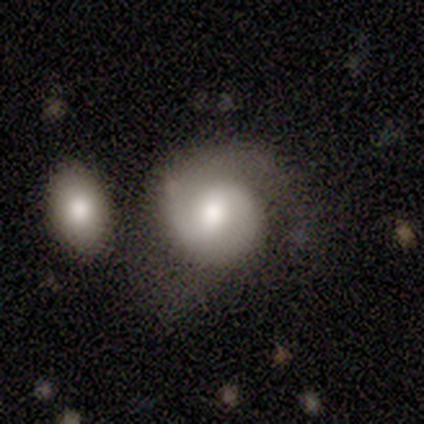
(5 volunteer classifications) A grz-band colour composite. It shows a featured or disk galaxy (60%) with a weak bar (100%), 2 (67%) loose (67%) spiral arms (100%) and a moderate central bulge (67%). Merging: none (60%).